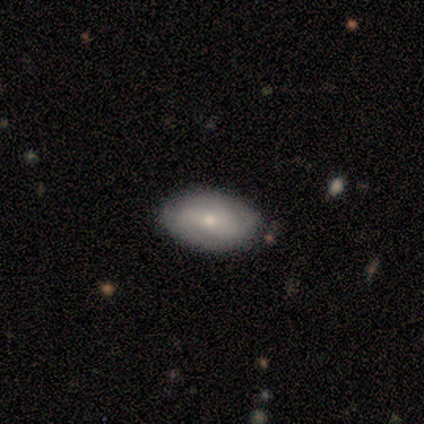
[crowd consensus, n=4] featured or disk 75%, smooth 25%, star or artifact 0%. Down the decision tree: edge-on disk — no (100%); bar — no (67%); spiral arms — yes (67%); spiral arm count — 2 (50%, tied with 3); spiral winding — medium (50%, tied with loose); bulge size — small (100%); merging — none (100%).